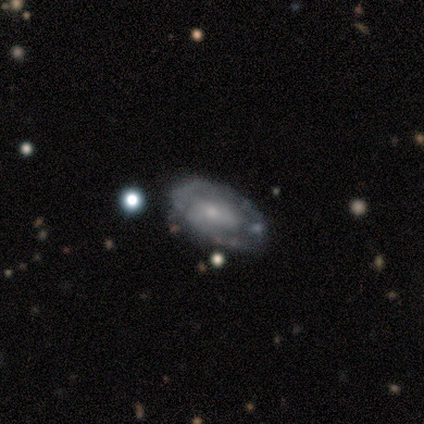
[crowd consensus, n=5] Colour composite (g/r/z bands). It shows a featured or disk galaxy (80%) with a weak bar (50%, tied with no), 2 (50%) tight (50%) spiral arms (100%) and a small central bulge (75%). Merging: none (60%).